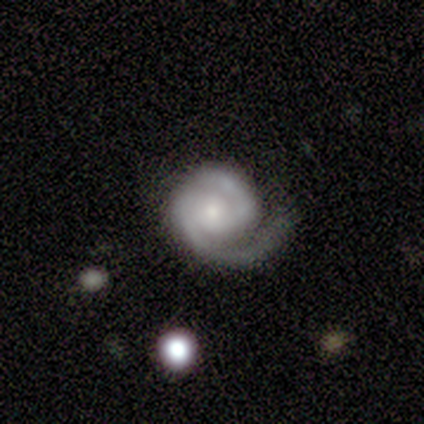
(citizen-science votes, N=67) Smooth or featured?
  - featured or disk: 96% *
  - star or artifact: 4%
  - smooth: 0%
Edge-on disk?
  - no: 98% *
  - yes: 2%
Bar?
  - no: 70% *
  - weak: 29%
  - strong: 2%
Spiral arms?
  - yes: 97% *
  - no: 3%
Spiral winding?
  - tight: 61% *
  - medium: 31%
  - loose: 8%
Spiral arm count?
  - 2: 79% *
  - 1: 16%
  - can't tell: 5%
  - 3: 0%
  - 4: 0%
  - more than 4: 0%
Bulge size?
  - small: 51% *
  - moderate: 43%
  - large: 5%
  - dominant: 2%
  - none: 0%
Merging?
  - none: 45% *
  - major disturbance: 31%
  - minor disturbance: 20%
  - merger: 3%